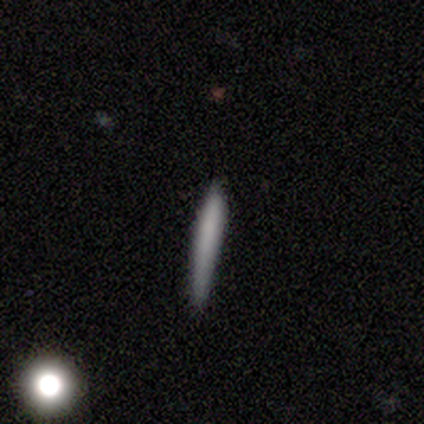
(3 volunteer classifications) Overall: smooth (67%; star or artifact 33%). How rounded: cigar-shaped (100%). Merging: none (50%, tied with minor disturbance).